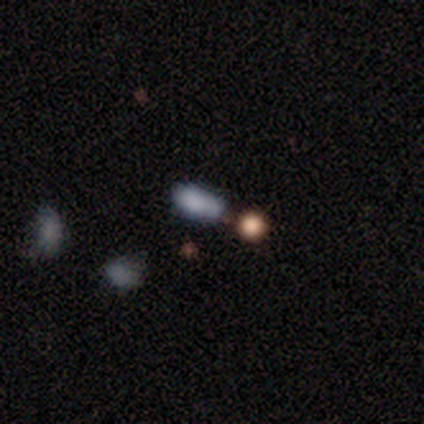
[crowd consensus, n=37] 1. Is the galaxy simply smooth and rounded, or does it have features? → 81% smooth, 14% star or artifact, 5% featured or disk.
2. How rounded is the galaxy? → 83% in between, 10% cigar-shaped, 7% round.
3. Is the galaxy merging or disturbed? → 50% minor disturbance, 25% none, 22% merger, 3% major disturbance.